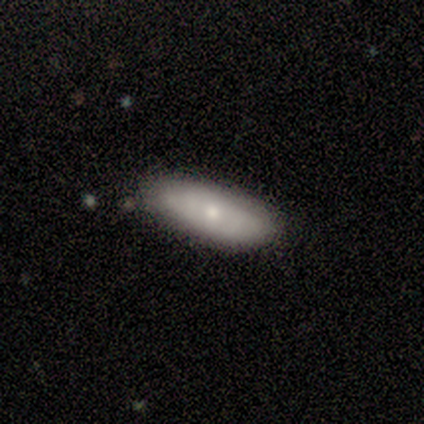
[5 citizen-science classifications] Overall: smooth (80%). How rounded: in between (50%, tied with cigar-shaped). Merging: none (60%; minor disturbance 40%).